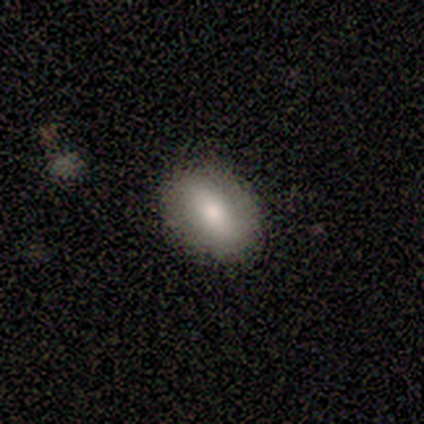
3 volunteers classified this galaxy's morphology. smooth_or_featured: smooth (p=0.67) [alt: star or artifact p=0.33]
how_rounded: round (p=0.50) [tied with: in between p=0.50]
merging: none (p=1.00)